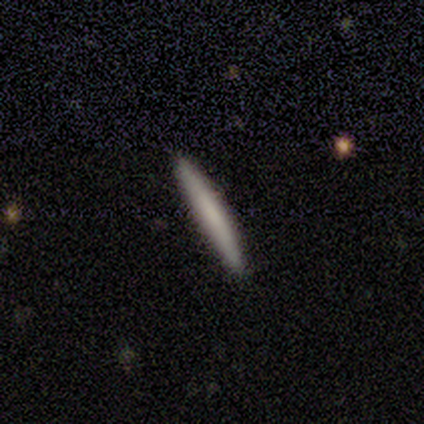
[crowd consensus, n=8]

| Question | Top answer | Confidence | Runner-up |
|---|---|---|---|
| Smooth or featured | smooth | 75% | featured or disk (25%) |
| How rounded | cigar-shaped | 100% | — |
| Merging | none | 100% | — |